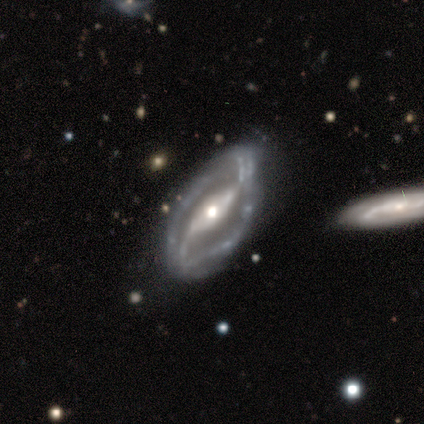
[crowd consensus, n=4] Morphology: type=featured or disk (75%); edge-on=no (100%); bar=strong (67%); spiral arms=yes (100%); winding=medium (67%); arm count=2 (100%); bulge=moderate (100%); merging=none (75%).